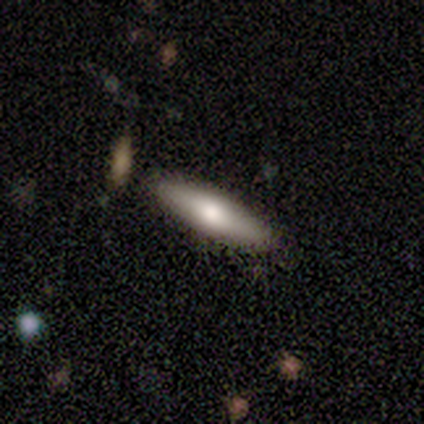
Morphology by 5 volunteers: This is clearly a smooth galaxy (80%). How rounded: possibly in between (50%, tied with cigar-shaped). Merging: clearly none (80%).